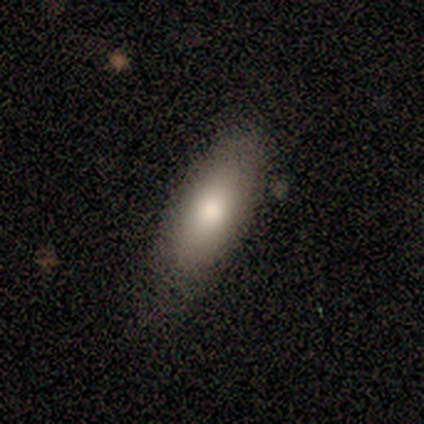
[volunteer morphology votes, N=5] Overall: smooth (100%). How rounded: in between (100%). Merging: none (100%).